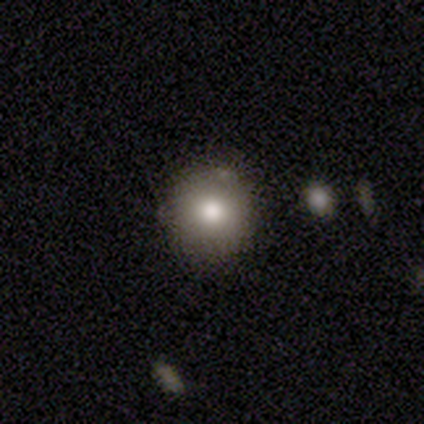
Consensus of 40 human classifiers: Morphology: type=smooth (88%); roundness=round (94%); merging=none (84%).